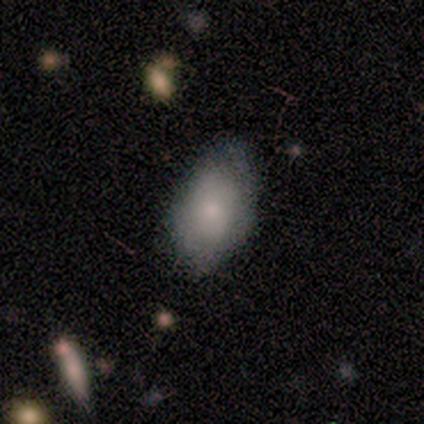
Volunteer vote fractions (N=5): Overall: smooth (100%). How rounded: in between (100%). Merging: none (60%; minor disturbance 40%).